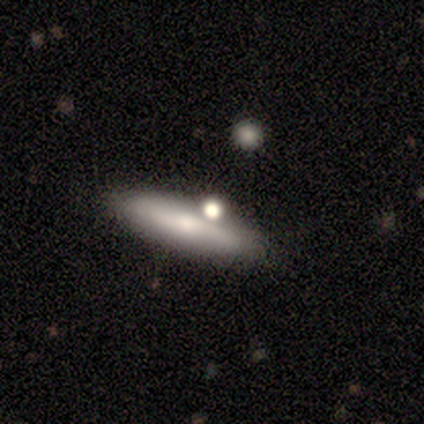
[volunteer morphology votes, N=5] type=smooth (80%); roundness=cigar-shaped (75%); merging=none (100%).